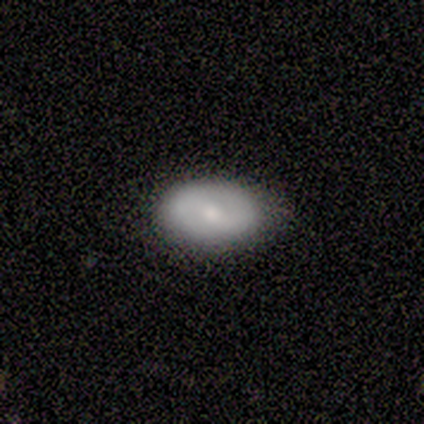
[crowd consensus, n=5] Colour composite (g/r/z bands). It shows a smooth galaxy with no disk features (80%) that is in between round and cigar-shaped (100%). Merging: none (60%).